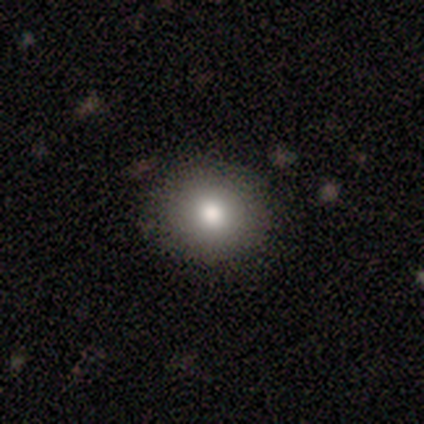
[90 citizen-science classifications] Smooth or featured?
  - smooth: 86% *
  - star or artifact: 12%
  - featured or disk: 2%
How rounded?
  - round: 88% *
  - in between: 12%
  - cigar-shaped: 0%
Merging?
  - none: 94% *
  - minor disturbance: 5%
  - merger: 1%
  - major disturbance: 0%